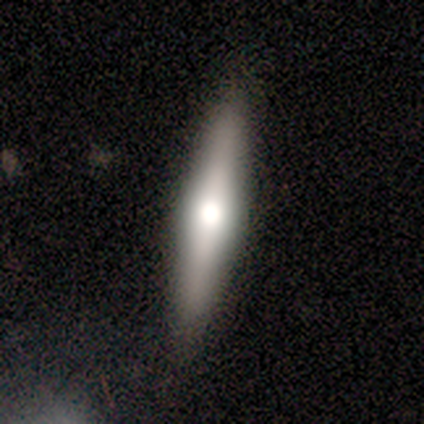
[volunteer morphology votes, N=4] Smooth or featured: smooth — 50% (featured or disk — 25%)
How rounded: cigar-shaped — 100%
Merging: none — 67% (minor disturbance — 33%)